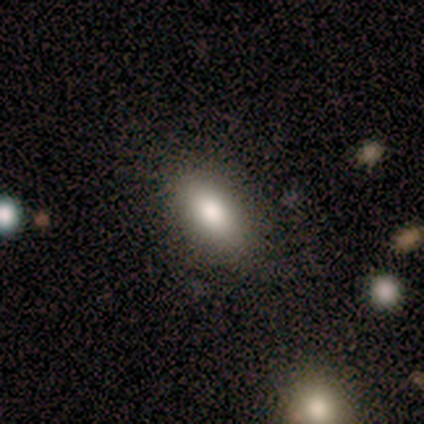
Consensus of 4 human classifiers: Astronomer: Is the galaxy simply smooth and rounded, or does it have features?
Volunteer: smooth — 100%.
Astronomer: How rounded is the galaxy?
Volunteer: in between — 100%.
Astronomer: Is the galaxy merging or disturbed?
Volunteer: none — 100%.